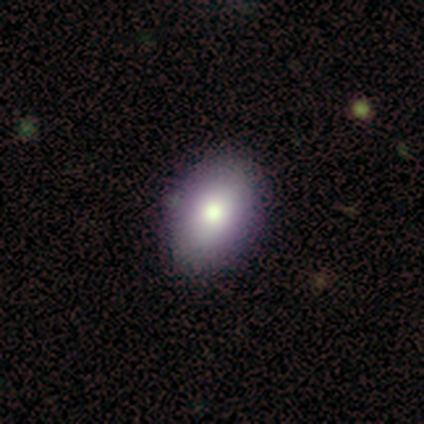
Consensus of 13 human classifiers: A smooth galaxy with no disk features (85%) that is in between round and cigar-shaped (91%).

Vote fractions:
- Smooth or featured? smooth: 85% / featured or disk: 8% / star or artifact: 8%
- How rounded? in between: 91% / round: 9% / cigar-shaped: 0%
- Merging? none: 92% / minor disturbance: 8% / major disturbance: 0% / merger: 0%